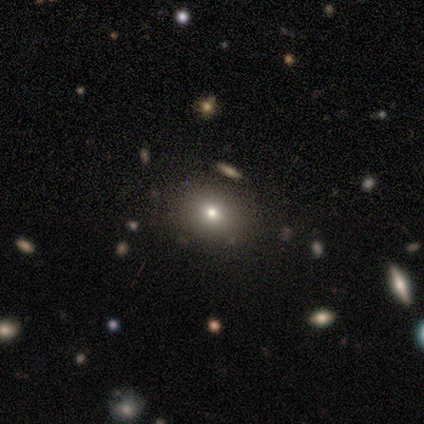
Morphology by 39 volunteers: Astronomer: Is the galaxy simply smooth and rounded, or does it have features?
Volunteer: smooth — 67%.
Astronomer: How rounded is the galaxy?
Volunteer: round — 65%.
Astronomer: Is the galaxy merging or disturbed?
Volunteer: none — 77%.